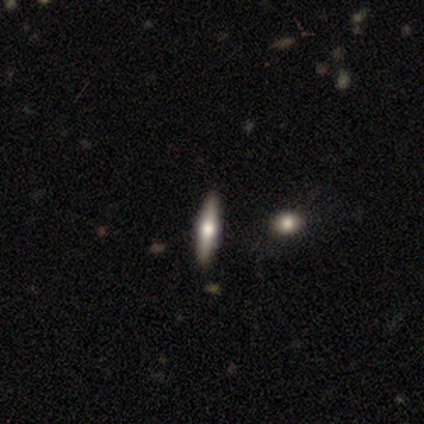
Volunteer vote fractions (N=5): Smooth or featured: featured or disk — 60% (smooth — 40%)
Edge-on disk: yes — 67% (no — 33%)
Edge-on bulge: rounded — 100%
Merging: none — 100%